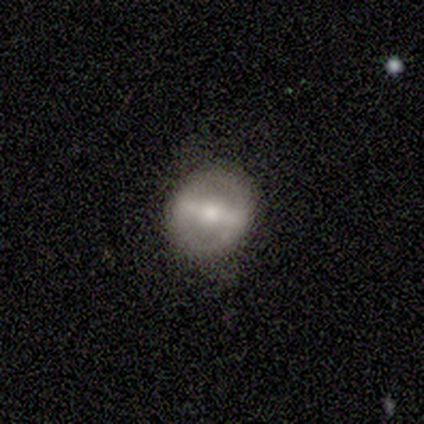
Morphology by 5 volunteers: Smooth or featured? featured or disk (80%)
Edge-on disk? no (100%)
Bar? strong (100%)
Spiral arms? yes (50%, tied with no)
Spiral winding? medium (100%)
Spiral arm count? 2 (100%)
Bulge size? moderate (50%, tied with small)
Merging? none (100%)